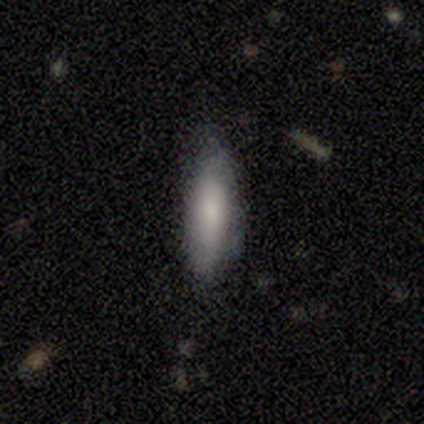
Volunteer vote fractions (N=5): smooth 100%, featured or disk 0%, star or artifact 0%. Down the decision tree: how rounded — cigar-shaped (60%); merging — none (80%).